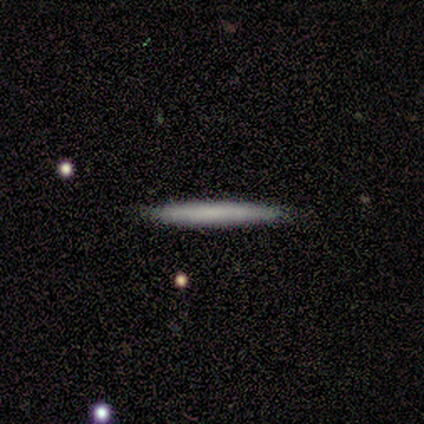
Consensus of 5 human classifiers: Smooth or featured? smooth (60%)
How rounded? cigar-shaped (100%)
Merging? none (100%)